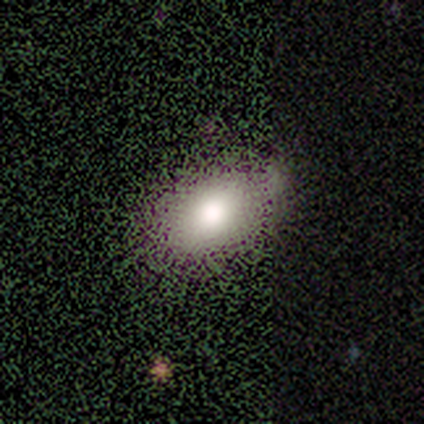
A smooth galaxy with no disk features (80%) that is in between round and cigar-shaped (75%).

Vote fractions:
- Smooth or featured? smooth: 80% / star or artifact: 20% / featured or disk: 0%
- How rounded? in between: 75% / round: 25% / cigar-shaped: 0%
- Merging? none: 75% / minor disturbance: 25% / major disturbance: 0% / merger: 0%